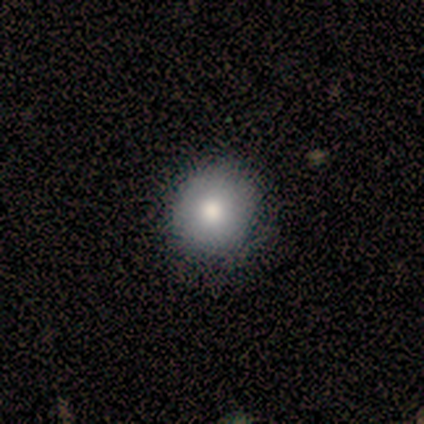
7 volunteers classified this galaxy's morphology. Smooth or featured?
  - smooth: 57% *
  - featured or disk: 29%
  - star or artifact: 14%
How rounded?
  - round: 50% * (tied)
  - in between: 50% * (tied)
  - cigar-shaped: 0%
Merging?
  - none: 83% *
  - major disturbance: 17%
  - minor disturbance: 0%
  - merger: 0%